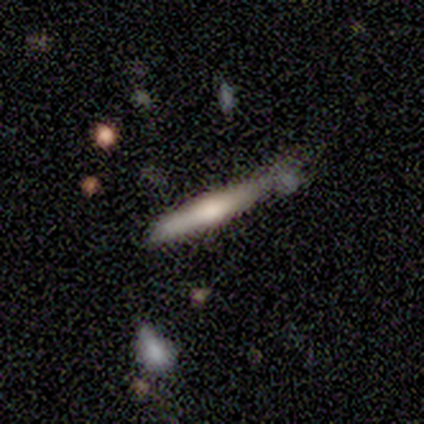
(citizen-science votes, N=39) A smooth galaxy with no disk features (51%) that is cigar-shaped (100%).

Vote fractions:
- Smooth or featured? smooth: 51% / featured or disk: 49% / star or artifact: 0%
- How rounded? cigar-shaped: 100% / round: 0% / in between: 0%
- Merging? none: 62% / minor disturbance: 26% / major disturbance: 8% / merger: 5%